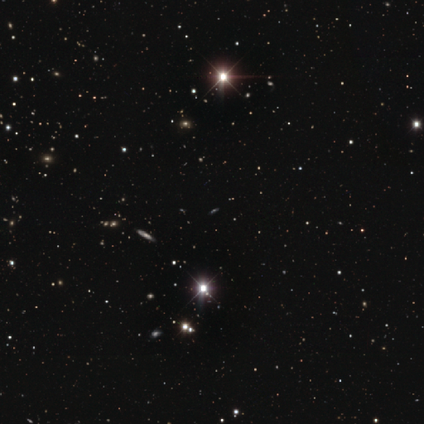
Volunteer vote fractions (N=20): This appears to be a star or artifact, not a galaxy (85%).